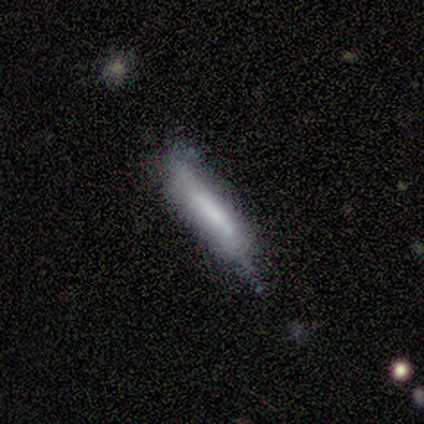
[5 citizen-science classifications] A smooth galaxy with no disk features (80%) that is cigar-shaped (100%). Merging: none (100%).